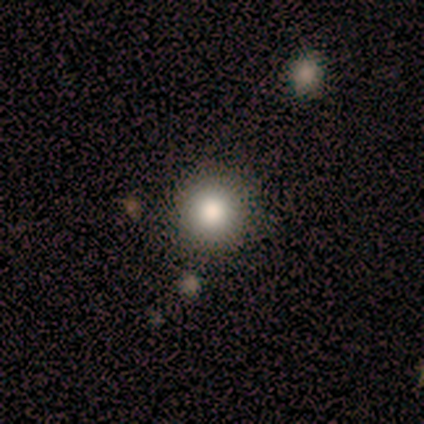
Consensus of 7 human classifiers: smooth 86%, featured or disk 14%, star or artifact 0%. Down the decision tree: how rounded — round (100%); merging — none (86%).